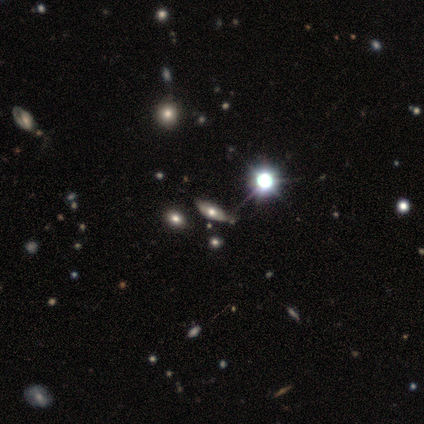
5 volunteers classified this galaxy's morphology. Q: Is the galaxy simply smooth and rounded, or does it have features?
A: smooth — 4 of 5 (80%).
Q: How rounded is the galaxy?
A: in between — 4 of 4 (100%).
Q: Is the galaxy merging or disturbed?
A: minor disturbance — 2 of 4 (50%).